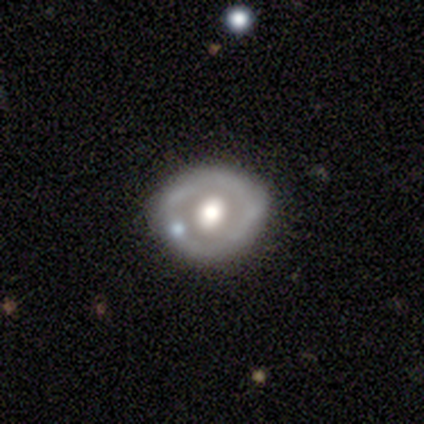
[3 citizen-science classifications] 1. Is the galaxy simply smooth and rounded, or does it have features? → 67% featured or disk, 33% smooth, 0% star or artifact.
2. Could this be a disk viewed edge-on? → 100% no, 0% yes.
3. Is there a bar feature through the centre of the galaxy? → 50% weak (tied), 50% no (tied), 0% strong.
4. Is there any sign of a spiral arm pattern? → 50% yes (tied), 50% no (tied).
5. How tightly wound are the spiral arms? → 100% tight, 0% medium, 0% loose.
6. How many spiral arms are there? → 100% can't tell, 0% 1, 0% 2, 0% 3, 0% 4, 0% more than 4.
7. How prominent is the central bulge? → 100% moderate, 0% dominant, 0% large, 0% small, 0% none.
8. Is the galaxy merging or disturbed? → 100% none, 0% minor disturbance, 0% major disturbance, 0% merger.